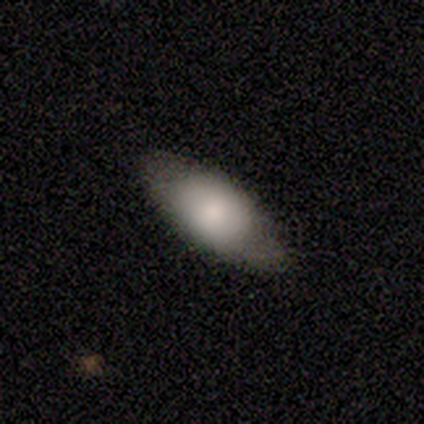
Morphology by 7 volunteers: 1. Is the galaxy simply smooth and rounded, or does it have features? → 57% featured or disk, 43% smooth, 0% star or artifact.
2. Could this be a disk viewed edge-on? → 100% no, 0% yes.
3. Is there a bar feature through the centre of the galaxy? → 75% no, 25% weak, 0% strong.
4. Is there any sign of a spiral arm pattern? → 75% no, 25% yes.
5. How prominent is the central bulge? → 50% dominant, 25% large, 25% small, 0% moderate, 0% none.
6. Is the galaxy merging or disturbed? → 86% none, 14% minor disturbance, 0% major disturbance, 0% merger.